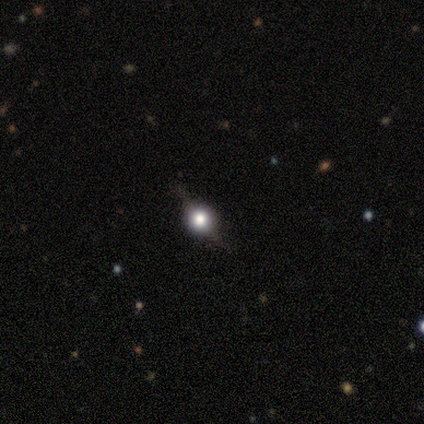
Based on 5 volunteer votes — Overall: featured or disk (80%). Edge-on disk: yes (100%). Edge-on bulge: rounded (100%). Merging: none (80%).